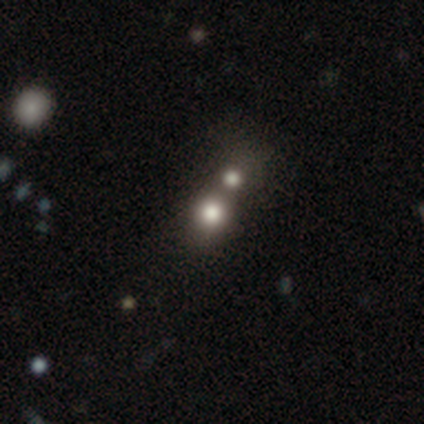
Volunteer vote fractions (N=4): A smooth galaxy with no disk features (75%) that is round (100%).

Vote fractions:
- Smooth or featured? smooth: 75% / star or artifact: 25% / featured or disk: 0%
- How rounded? round: 100% / in between: 0% / cigar-shaped: 0%
- Merging? none: 33% (tied) / major disturbance: 33% (tied) / merger: 33% (tied) / minor disturbance: 0%